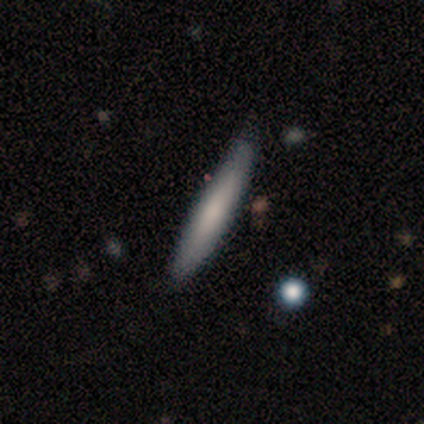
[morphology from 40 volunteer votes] A smooth galaxy with no disk features (62%) that is cigar-shaped (100%).

Vote fractions:
- Smooth or featured? smooth: 62% / featured or disk: 28% / star or artifact: 10%
- How rounded? cigar-shaped: 100% / round: 0% / in between: 0%
- Merging? none: 78% / minor disturbance: 22% / major disturbance: 0% / merger: 0%